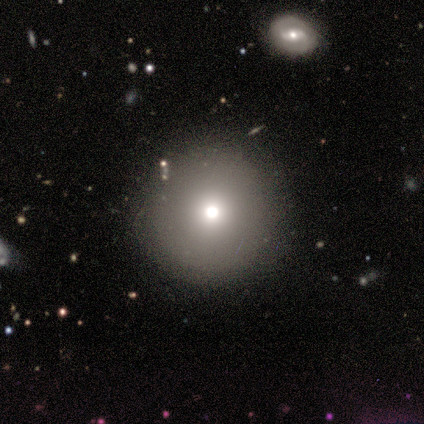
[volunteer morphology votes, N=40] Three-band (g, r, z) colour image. It shows a smooth galaxy with no disk features (80%) that is round (97%). Merging: none (79%).